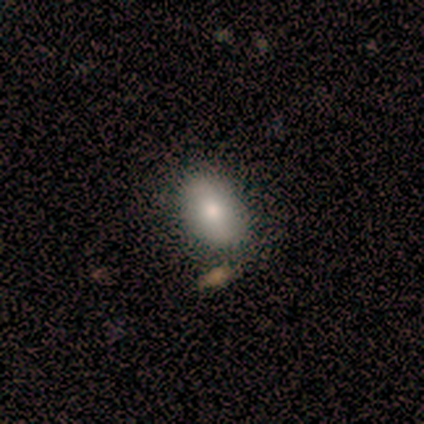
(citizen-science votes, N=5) This appears to be a smooth galaxy with no disk features (100%) that is in between round and cigar-shaped (100%). Merging: none (80%).